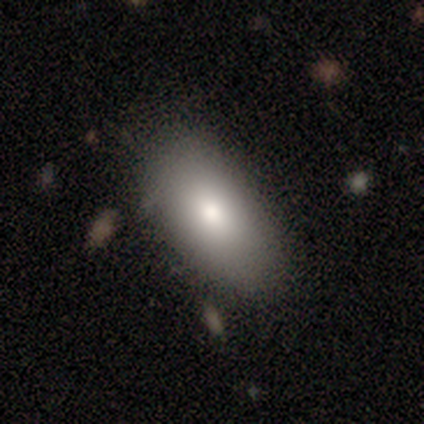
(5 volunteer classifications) Q: Smooth or featured?
A: smooth (80%); runner-up: featured or disk (20%)
Q: How rounded?
A: in between (100%)
Q: Merging?
A: none (60%); runner-up: minor disturbance (40%)